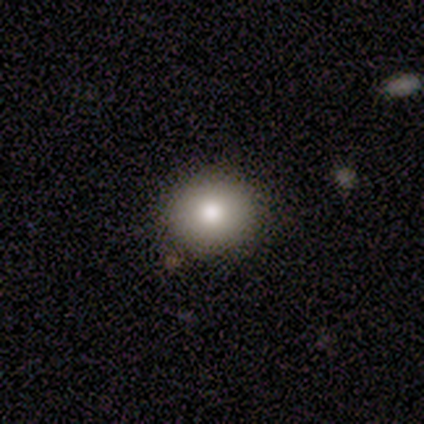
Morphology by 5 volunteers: This appears to be a smooth galaxy with no disk features (80%) that is round (75%). Merging: none (100%).